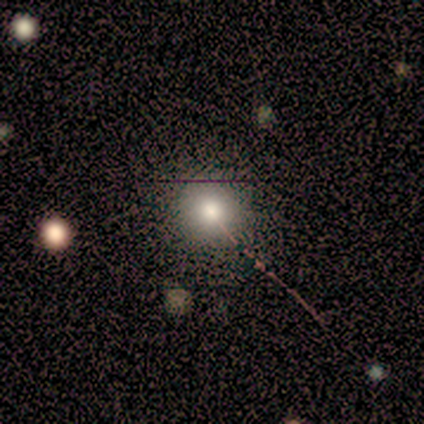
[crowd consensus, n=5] Overall: smooth (60%; featured or disk 20%). How rounded: round (100%). Merging: none (75%).